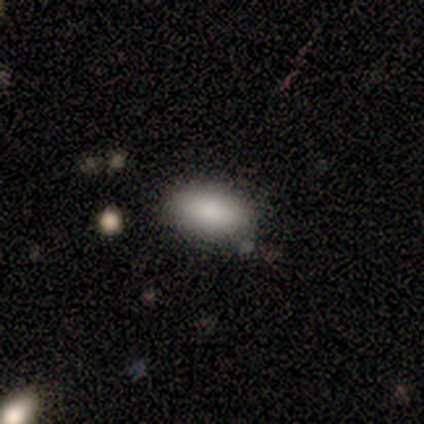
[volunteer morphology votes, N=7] Smooth or featured?
  - smooth: 86% *
  - featured or disk: 14%
  - star or artifact: 0%
How rounded?
  - in between: 100% *
  - round: 0%
  - cigar-shaped: 0%
Merging?
  - none: 100% *
  - minor disturbance: 0%
  - major disturbance: 0%
  - merger: 0%